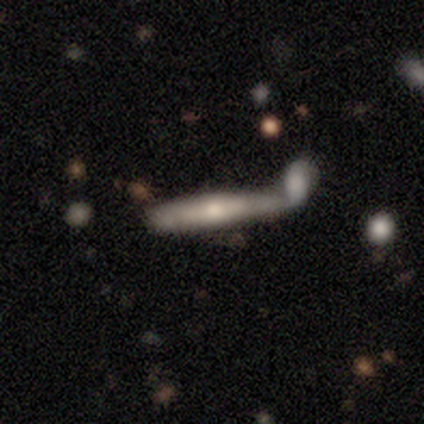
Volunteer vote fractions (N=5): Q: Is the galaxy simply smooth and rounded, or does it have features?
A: smooth — 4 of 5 (80%).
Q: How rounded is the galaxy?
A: cigar-shaped — 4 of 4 (100%).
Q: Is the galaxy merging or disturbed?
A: merger — 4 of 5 (80%).